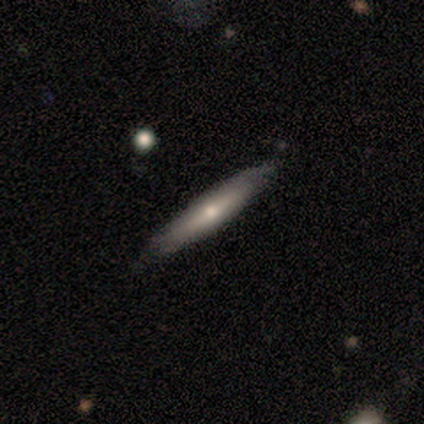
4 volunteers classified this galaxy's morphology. Smooth or featured?
  - smooth: 50% * (tied)
  - featured or disk: 50% * (tied)
  - star or artifact: 0%
How rounded?
  - cigar-shaped: 100% *
  - round: 0%
  - in between: 0%
Merging?
  - none: 75% *
  - minor disturbance: 25%
  - major disturbance: 0%
  - merger: 0%